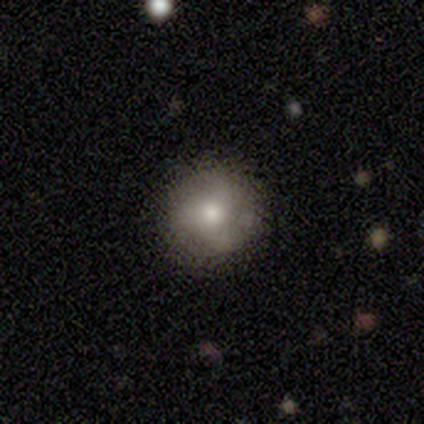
This appears to be a smooth galaxy with no disk features (64%) that is round (91%). Merging: none (74%).